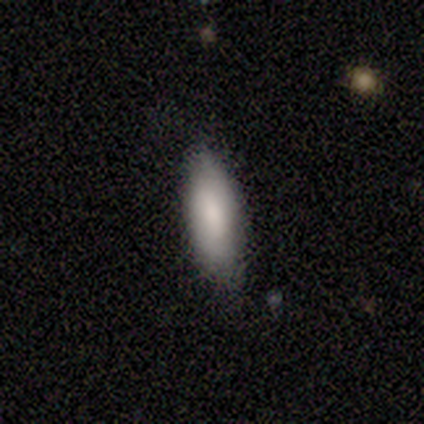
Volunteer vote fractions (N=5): Volunteers were most divided on "how rounded" (2-way tie): in between: 50%, cigar-shaped: 50%, round: 0%. More confident: merging — none (100%); smooth or featured — smooth (80%).